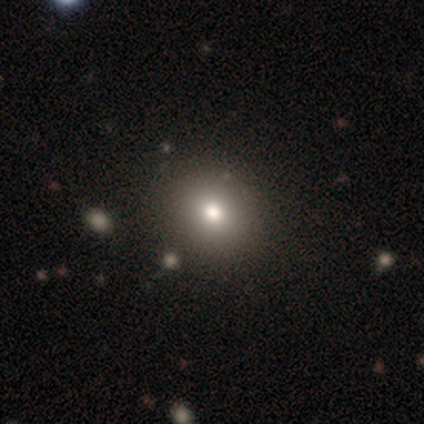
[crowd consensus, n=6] smooth-or-featured: smooth: 50% | featured or disk: 33% | star or artifact: 17%
  how-rounded: round: 100% | in between: 0% | cigar-shaped: 0%
  merging: none: 100% | minor disturbance: 0% | major disturbance: 0% | merger: 0%